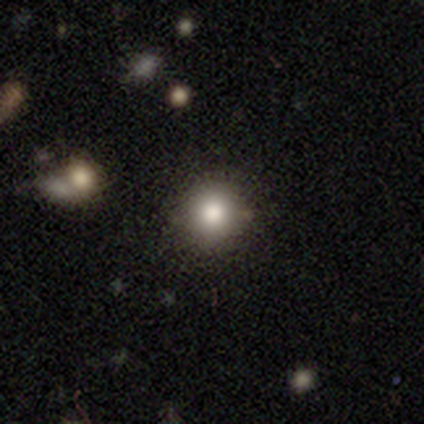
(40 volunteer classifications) Smooth or featured: smooth — 78% (star or artifact — 20%)
How rounded: round — 97% (in between — 3%)
Merging: none — 94% (minor disturbance — 3%)